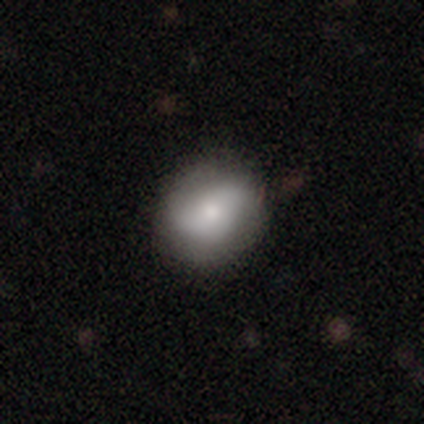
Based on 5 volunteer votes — Smooth or featured? featured or disk (60%)
Edge-on disk? no (100%)
Bar? no (100%)
Spiral arms? no (67%)
Bulge size? small (67%)
Merging? none (60%)